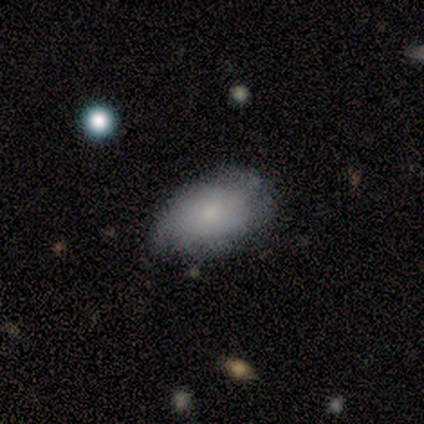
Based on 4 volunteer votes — A smooth galaxy with no disk features (75%) that is in between round and cigar-shaped (67%).

Vote fractions:
- Smooth or featured? smooth: 75% / featured or disk: 25% / star or artifact: 0%
- How rounded? in between: 67% / round: 33% / cigar-shaped: 0%
- Merging? none: 75% / minor disturbance: 25% / major disturbance: 0% / merger: 0%